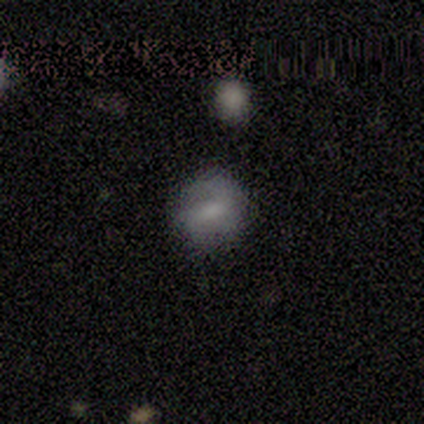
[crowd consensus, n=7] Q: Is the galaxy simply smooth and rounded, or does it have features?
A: smooth — 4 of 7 (57%).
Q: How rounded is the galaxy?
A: round — 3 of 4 (75%).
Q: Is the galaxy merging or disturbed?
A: none — 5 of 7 (71%).